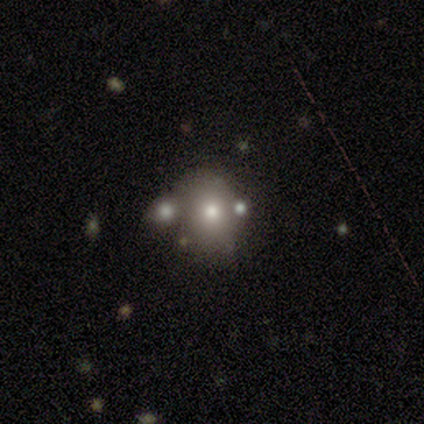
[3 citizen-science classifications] Morphology: type=smooth (67%); roundness=in between (100%); merging=none (50%, tied with minor disturbance).